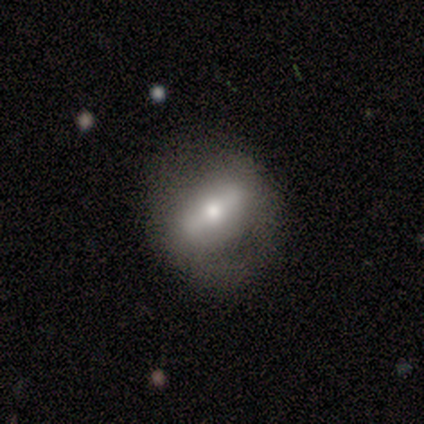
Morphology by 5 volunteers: type=featured or disk (60%); edge-on=no (67%); bar=weak (100%); spiral arms=no (100%); bulge=moderate (50%, tied with small); merging=none (50%).